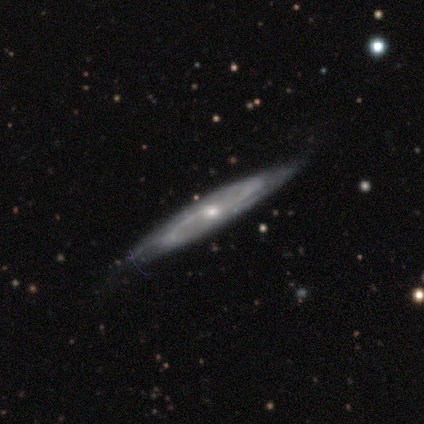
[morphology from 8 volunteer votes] smooth_or_featured: featured or disk (p=0.88) [alt: star or artifact p=0.12]
disk_edge_on: no (p=0.71) [alt: yes p=0.29]
bar: no (p=0.60) [alt: weak p=0.40]
has_spiral_arms: yes (p=1.00)
spiral_winding: medium (p=1.00)
spiral_arm_count: 2 (p=1.00)
bulge_size: small (p=0.80) [alt: moderate p=0.20]
merging: none (p=1.00)